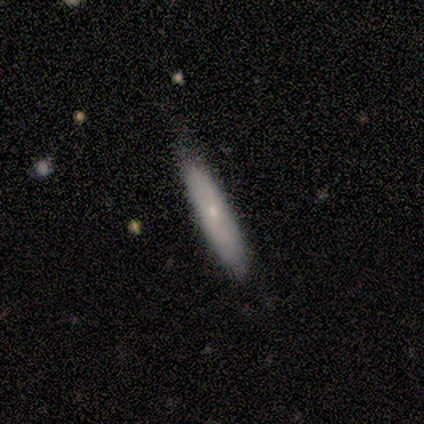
A smooth galaxy with no disk features (100%) that is cigar-shaped (60%).

Vote fractions:
- Smooth or featured? smooth: 100% / featured or disk: 0% / star or artifact: 0%
- How rounded? cigar-shaped: 60% / in between: 40% / round: 0%
- Merging? none: 60% / minor disturbance: 40% / major disturbance: 0% / merger: 0%